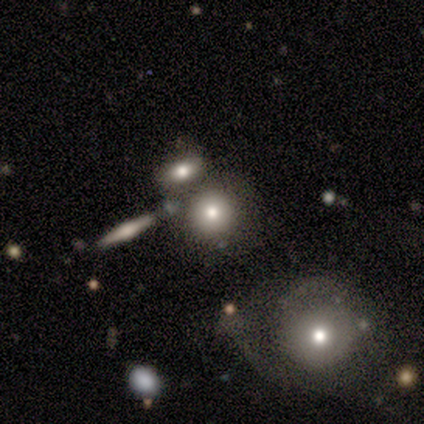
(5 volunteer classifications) Q: Smooth or featured?
A: smooth (80%); runner-up: featured or disk (20%)
Q: How rounded?
A: round (75%); runner-up: in between (25%)
Q: Merging?
A: none (60%); runner-up: major disturbance (20%)